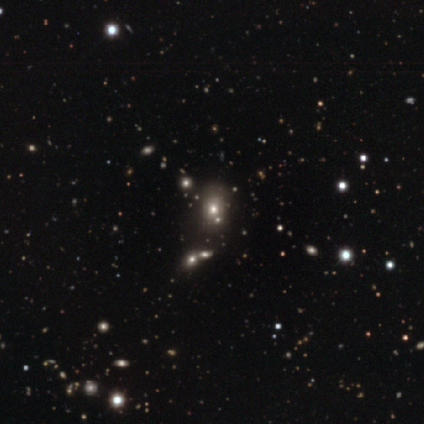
Smooth or featured: star or artifact — 50% (smooth — 25%)